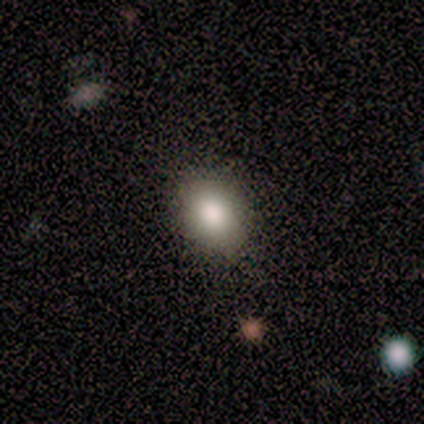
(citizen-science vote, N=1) Consensus on every question: smooth or featured — smooth (100%); how rounded — in between (100%); merging — none (100%).